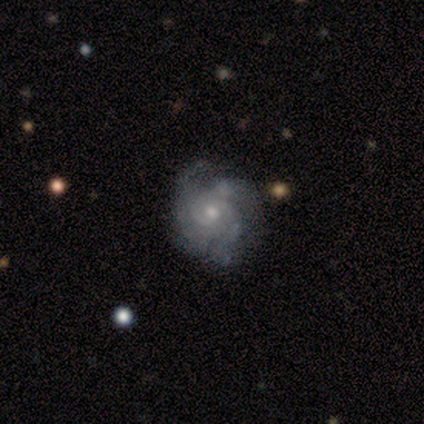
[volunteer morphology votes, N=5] featured or disk 80%, star or artifact 20%, smooth 0%. Down the decision tree: edge-on disk — no (100%); bar — no (75%); spiral arms — yes (100%); spiral arm count — 2 (50%); spiral winding — tight (75%); bulge size — moderate (75%); merging — none (50%, tied with merger).